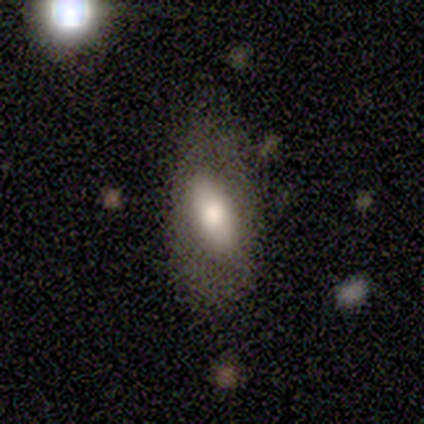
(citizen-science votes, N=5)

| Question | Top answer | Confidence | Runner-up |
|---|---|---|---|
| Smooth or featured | smooth | 80% | star or artifact (20%) |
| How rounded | in between | 75% | round (25%) |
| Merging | none | 75% | minor disturbance (25%) |